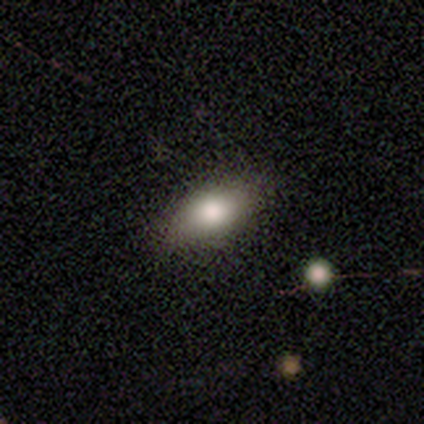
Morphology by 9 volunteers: Smooth or featured: smooth — 67% (featured or disk — 22%)
How rounded: in between — 83% (round — 17%)
Merging: none — 88% (minor disturbance — 12%)